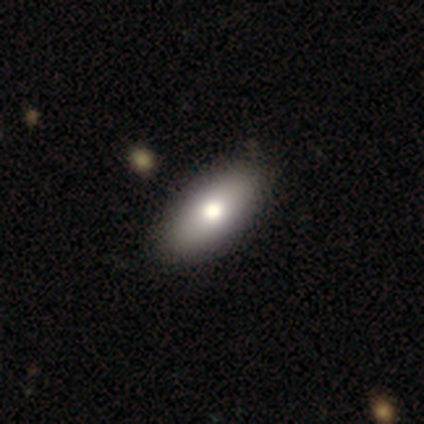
A smooth galaxy with no disk features (80%) that is in between round and cigar-shaped (88%). Merging: none (71%).